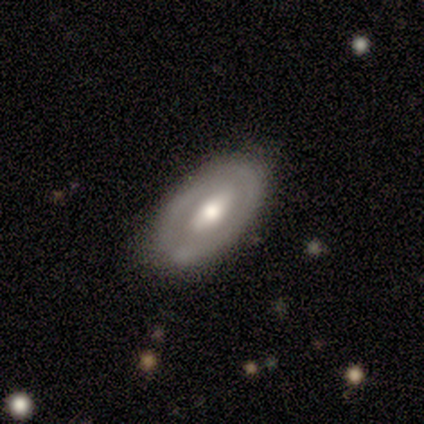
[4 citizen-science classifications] Overall: featured or disk (75%). Edge-on disk: no (100%). Bar: strong (67%; weak 33%). Spiral arms: yes (67%; no 33%). Spiral arm count: 2 (50%, tied with can't tell). Spiral winding: tight (50%, tied with medium). Bulge size: moderate (100%). Merging: none (67%; minor disturbance 33%).